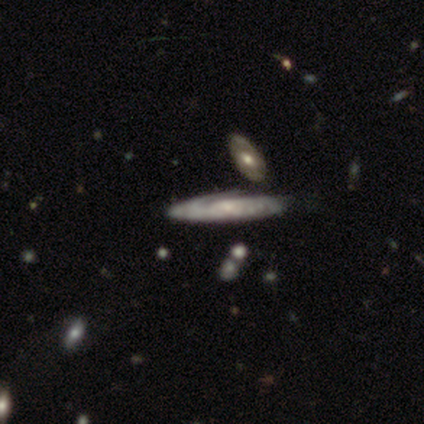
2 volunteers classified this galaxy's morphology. A featured or disk galaxy (100%) viewed edge-on (50%, tied with no) with no central bulge (100%). Merging: none (50%, tied with minor disturbance).